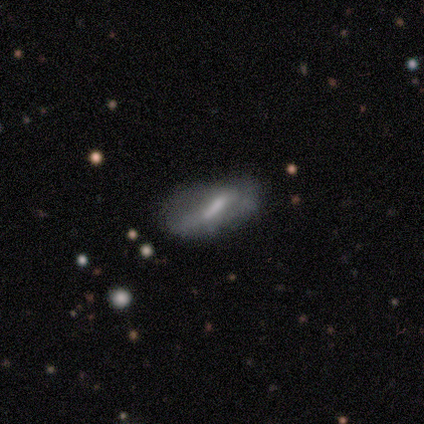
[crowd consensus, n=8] Smooth or featured: featured or disk — 50% (smooth — 38%)
Edge-on disk: no — 100%
Bar: strong — 75% (no — 25%)
Spiral arms: yes — 50% (tied with no — 50%)
Spiral winding: tight — 50% (tied with loose — 50%)
Spiral arm count: can't tell — 100%
Bulge size: moderate — 50% (tied with small — 50%)
Merging: major disturbance — 43% (none — 29%)